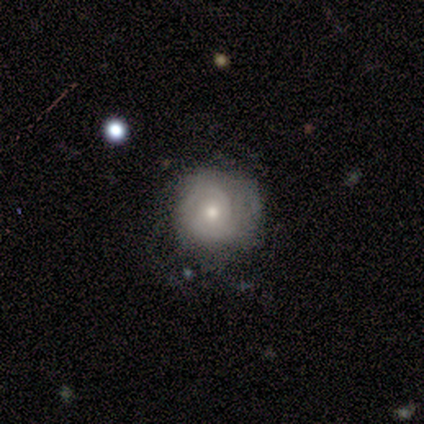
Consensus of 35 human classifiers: A featured or disk galaxy (69%) with no bar (67%), 2 (39%) tight (67%) spiral arms (75%) and a moderate central bulge (50%). Merging: none (59%).